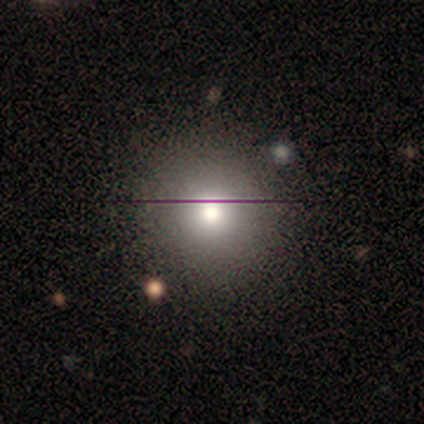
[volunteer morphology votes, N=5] Smooth or featured? 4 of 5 (80%) said smooth. How rounded? 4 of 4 (100%) said round. Merging? 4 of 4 (100%) said none.